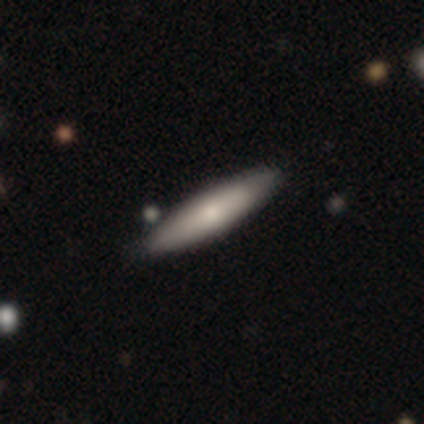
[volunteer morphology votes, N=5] This is clearly a smooth galaxy (80%). How rounded: likely cigar-shaped (75%). Merging: clearly none (100%).